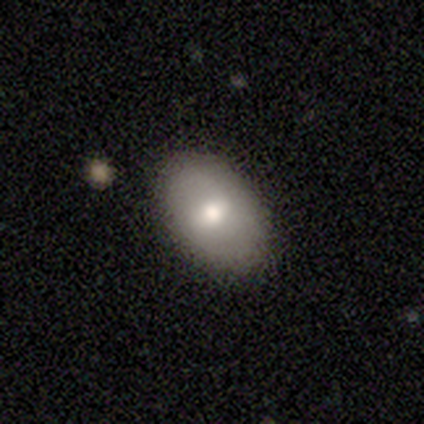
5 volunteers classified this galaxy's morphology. smooth-or-featured: smooth: 40% (tied) | star or artifact: 40% (tied) | featured or disk: 20%
  how-rounded: in between: 100% | round: 0% | cigar-shaped: 0%
  merging: none: 100% | minor disturbance: 0% | major disturbance: 0% | merger: 0%